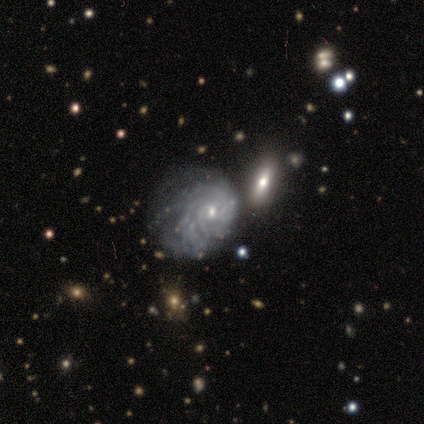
smooth_or_featured: featured or disk (p=0.80) [alt: smooth p=0.20]
disk_edge_on: no (p=1.00)
bar: no (p=1.00)
has_spiral_arms: yes (p=1.00)
spiral_winding: tight (p=0.75) [alt: medium p=0.25]
spiral_arm_count: can't tell (p=0.50) [alt: 4 p=0.25]
bulge_size: small (p=0.75) [alt: moderate p=0.25]
merging: none (p=0.40) [alt: minor disturbance p=0.20]